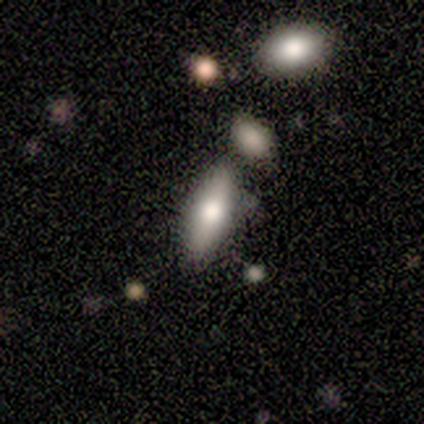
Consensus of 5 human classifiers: A smooth galaxy with no disk features (100%) that is in between round and cigar-shaped (100%). Merging: none (60%).